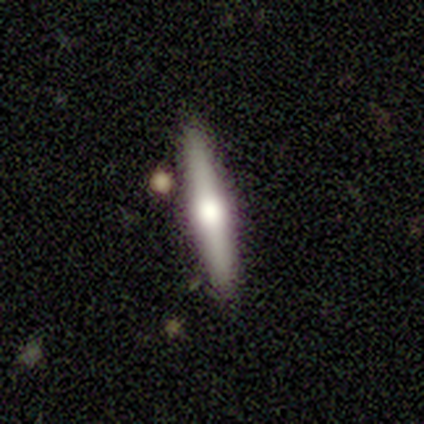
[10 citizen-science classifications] This is likely a featured or disk galaxy (70%). It is clearly viewed edge-on (86%). Edge-on bulge: clearly rounded (83%). Merging: likely none (70%).